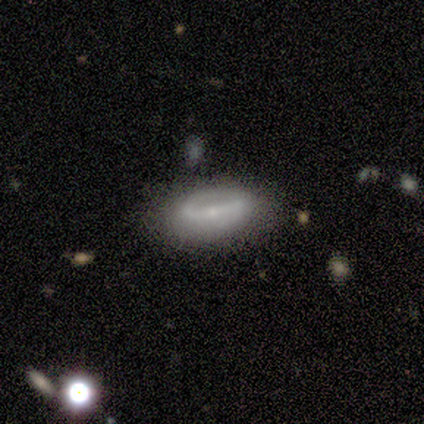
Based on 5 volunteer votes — smooth_or_featured: smooth (p=0.80) [alt: star or artifact p=0.20]
how_rounded: in between (p=1.00)
merging: none (p=0.75) [alt: minor disturbance p=0.25]